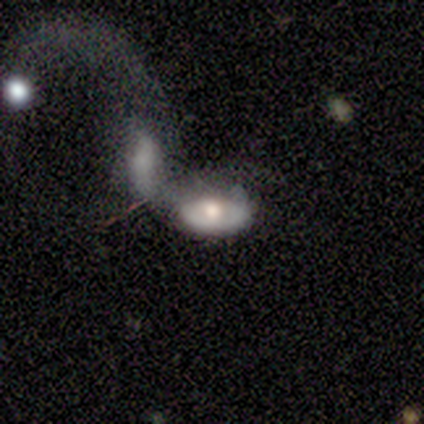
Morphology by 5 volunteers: smooth 60%, featured or disk 40%, star or artifact 0%. Down the decision tree: how rounded — in between (100%); merging — merger (80%).